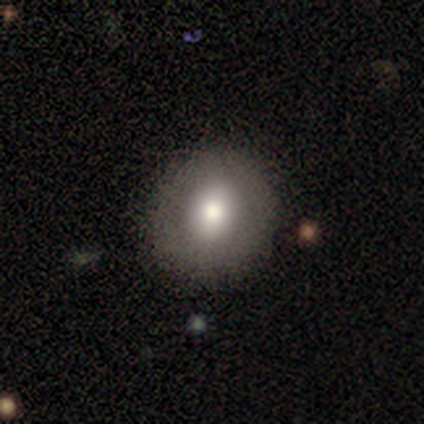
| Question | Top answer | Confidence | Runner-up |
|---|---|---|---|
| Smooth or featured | smooth | 57% | featured or disk (43%) |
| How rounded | round | 75% | in between (25%) |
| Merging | none | 100% | — |